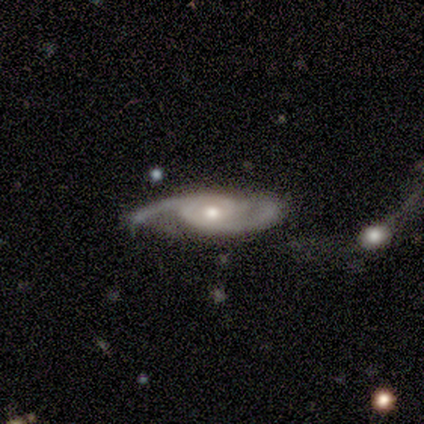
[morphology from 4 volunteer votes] A featured or disk galaxy (100%) with no bar (67%), 2 (100%) medium (100%) spiral arms (100%) and a moderate central bulge (100%).

Vote fractions:
- Smooth or featured? featured or disk: 100% / smooth: 0% / star or artifact: 0%
- Edge-on disk? no: 75% / yes: 25%
- Bar? no: 67% / weak: 33% / strong: 0%
- Spiral arms? yes: 100% / no: 0%
- Spiral winding? medium: 100% / tight: 0% / loose: 0%
- Spiral arm count? 2: 100% / 1: 0% / 3: 0% / 4: 0% / more than 4: 0% / can't tell: 0%
- Bulge size? moderate: 100% / dominant: 0% / large: 0% / small: 0% / none: 0%
- Merging? none: 50% / major disturbance: 25% / merger: 25% / minor disturbance: 0%